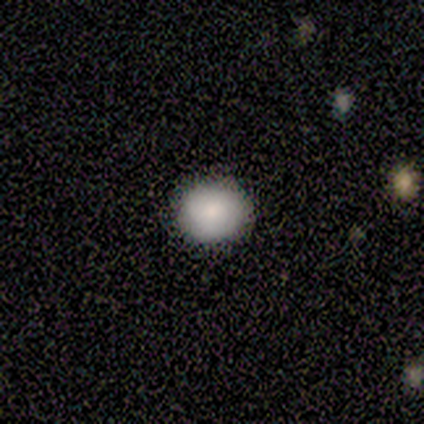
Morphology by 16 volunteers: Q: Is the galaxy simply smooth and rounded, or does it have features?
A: smooth — 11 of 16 (69%).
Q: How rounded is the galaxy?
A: round — 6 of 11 (55%).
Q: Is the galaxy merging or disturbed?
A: none — 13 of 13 (100%).